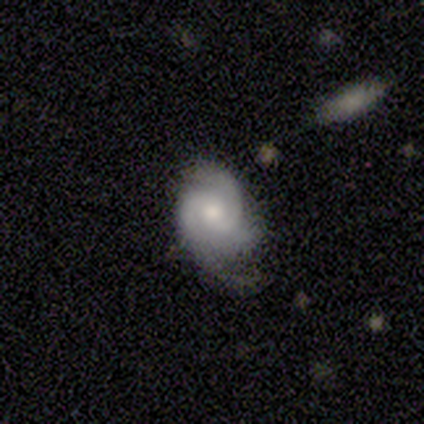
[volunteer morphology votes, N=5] smooth-or-featured: featured or disk: 100% | smooth: 0% | star or artifact: 0%
  disk-edge-on: no: 100% | yes: 0%
    bar: no: 60% | weak: 40% | strong: 0%
    has-spiral-arms: yes: 100% | no: 0%
      spiral-winding: tight: 80% | medium: 20% | loose: 0%
      spiral-arm-count: 3: 60% | 2: 40% | 1: 0% | 4: 0% | more than 4: 0% | can't tell: 0%
    bulge-size: small: 80% | moderate: 20% | dominant: 0% | large: 0% | none: 0%
  merging: none: 100% | minor disturbance: 0% | major disturbance: 0% | merger: 0%